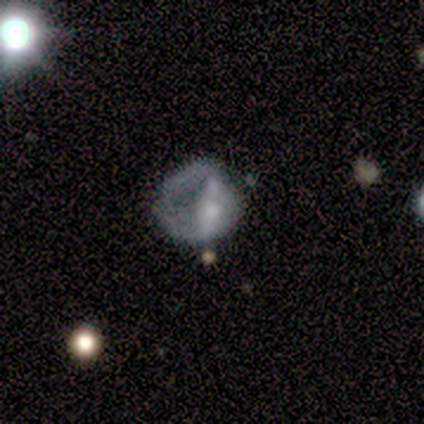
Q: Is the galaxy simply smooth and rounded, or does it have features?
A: smooth — 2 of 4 (50%).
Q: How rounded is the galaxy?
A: round — 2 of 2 (100%).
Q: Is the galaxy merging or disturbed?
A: none — 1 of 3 (33%, tied with minor disturbance and major disturbance).